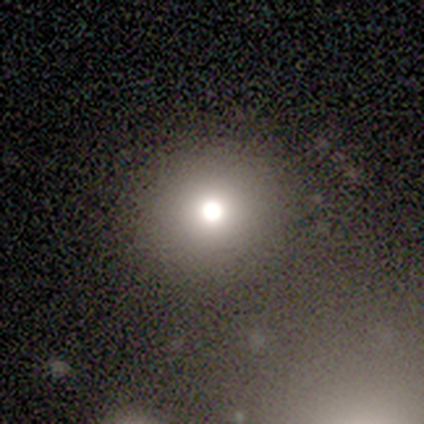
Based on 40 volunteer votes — Smooth or featured: smooth — 90% (featured or disk — 8%)
How rounded: round — 92% (in between — 8%)
Merging: none — 82% (minor disturbance — 10%)